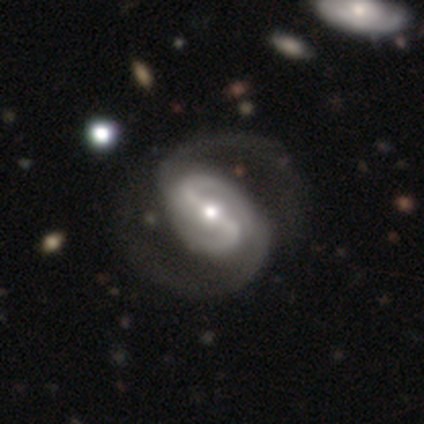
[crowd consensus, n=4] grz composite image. It shows a featured or disk galaxy (100%) with a strong bar (50%), 2 (100%) medium (100%) spiral arms (100%) and a moderate central bulge (50%). Merging: none (75%).